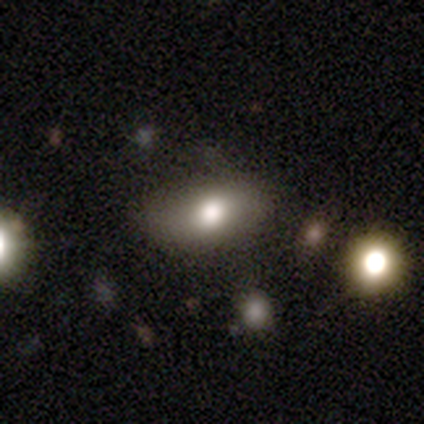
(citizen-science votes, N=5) This appears to be a smooth galaxy with no disk features (80%) that is in between round and cigar-shaped (75%). Merging: none (100%).